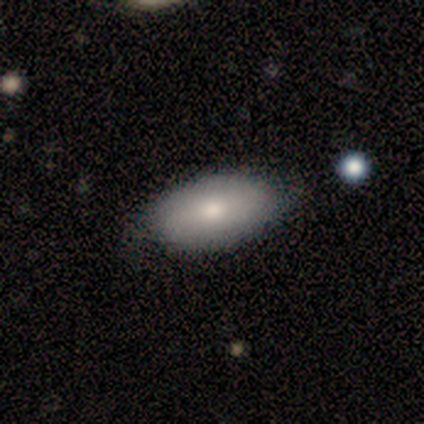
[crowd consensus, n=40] Smooth or featured?
  - smooth: 78% *
  - featured or disk: 15%
  - star or artifact: 8%
How rounded?
  - in between: 94% *
  - round: 3%
  - cigar-shaped: 3%
Merging?
  - none: 62% *
  - minor disturbance: 8%
  - merger: 3%
  - major disturbance: 0%